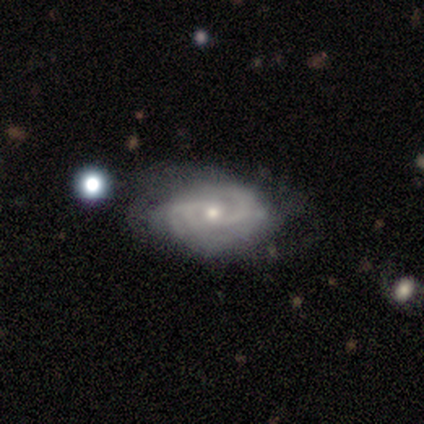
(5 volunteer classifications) Smooth or featured?
  - featured or disk: 100% *
  - smooth: 0%
  - star or artifact: 0%
Edge-on disk?
  - no: 100% *
  - yes: 0%
Bar?
  - no: 60% *
  - weak: 40%
  - strong: 0%
Spiral arms?
  - yes: 100% *
  - no: 0%
Spiral winding?
  - tight: 60% *
  - medium: 40%
  - loose: 0%
Spiral arm count?
  - 2: 100% *
  - 1: 0%
  - 3: 0%
  - 4: 0%
  - more than 4: 0%
  - can't tell: 0%
Bulge size?
  - small: 100% *
  - dominant: 0%
  - large: 0%
  - moderate: 0%
  - none: 0%
Merging?
  - none: 80% *
  - minor disturbance: 20%
  - major disturbance: 0%
  - merger: 0%